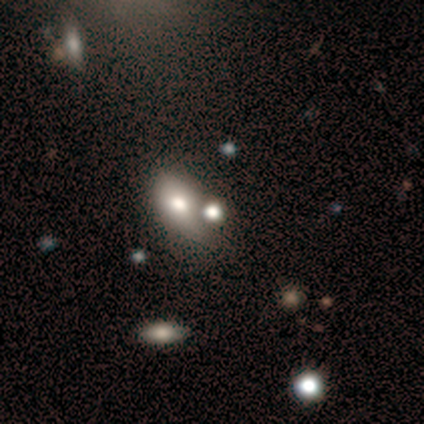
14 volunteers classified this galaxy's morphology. A smooth galaxy with no disk features (71%) that is in between round and cigar-shaped (80%).

Vote fractions:
- Smooth or featured? smooth: 71% / featured or disk: 21% / star or artifact: 7%
- How rounded? in between: 80% / round: 20% / cigar-shaped: 0%
- Merging? none: 38% / minor disturbance: 31% / merger: 23% / major disturbance: 8%